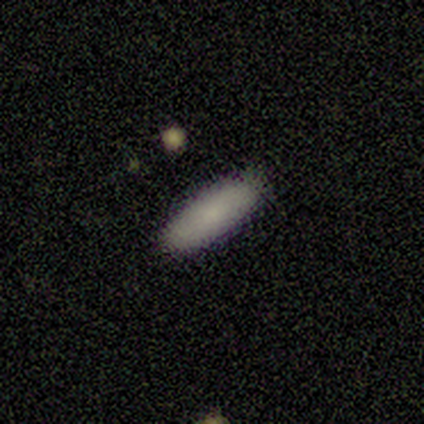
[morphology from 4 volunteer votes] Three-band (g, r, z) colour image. It shows a smooth galaxy with no disk features (75%) that is in between round and cigar-shaped (67%). Merging: none (100%).